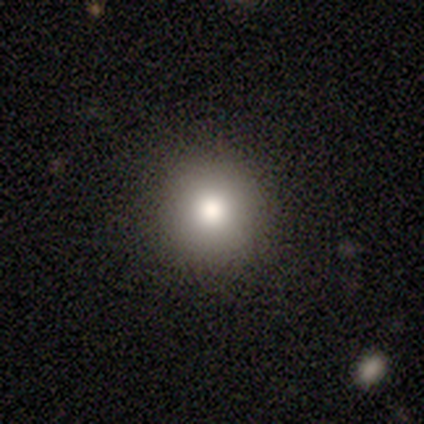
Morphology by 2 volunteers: Q: Smooth or featured?
A: smooth (100%)
Q: How rounded?
A: round (100%)
Q: Merging?
A: none (100%)